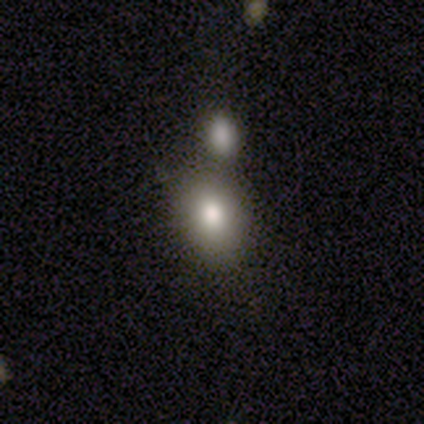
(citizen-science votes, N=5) This is likely a smooth galaxy (60%). How rounded: clearly in between (100%). Merging: clearly none (80%).